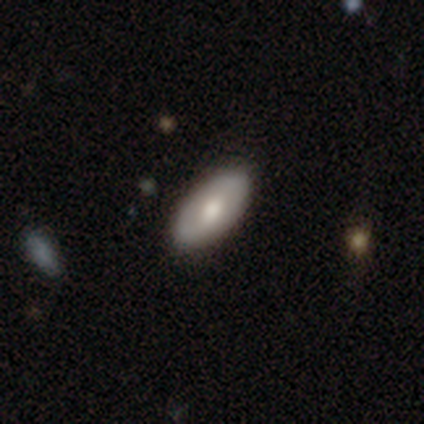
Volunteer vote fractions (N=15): Morphology: type=smooth (87%); roundness=in between (92%); merging=none (87%).